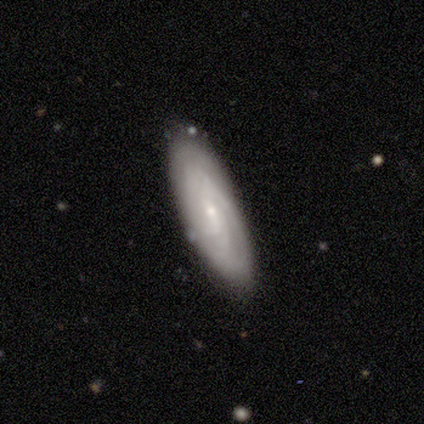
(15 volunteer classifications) This appears to be a featured or disk galaxy (80%) with no bar (60%), tight (78%) spiral arms (90%) and a small central bulge (80%). Merging: none (73%).